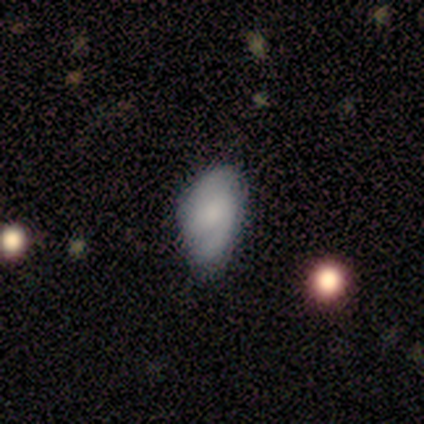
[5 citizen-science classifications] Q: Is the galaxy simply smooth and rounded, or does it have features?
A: smooth — 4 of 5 (80%).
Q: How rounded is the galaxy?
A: in between — 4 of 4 (100%).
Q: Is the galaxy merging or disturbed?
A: minor disturbance — 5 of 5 (100%).